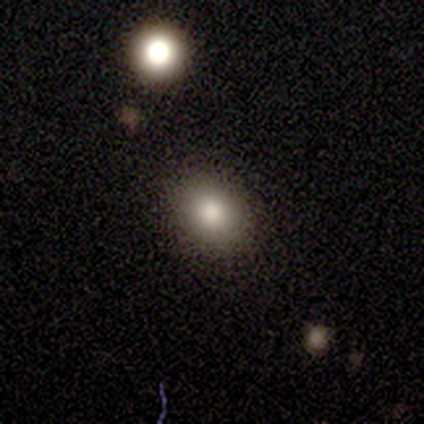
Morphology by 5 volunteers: smooth 80%, featured or disk 20%, star or artifact 0%. Down the decision tree: how rounded — in between (75%); merging — none (100%).